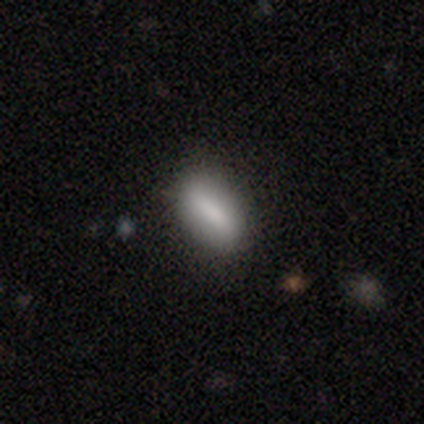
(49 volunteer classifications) smooth 82%, star or artifact 10%, featured or disk 8%. Down the decision tree: how rounded — in between (75%); merging — none (84%).